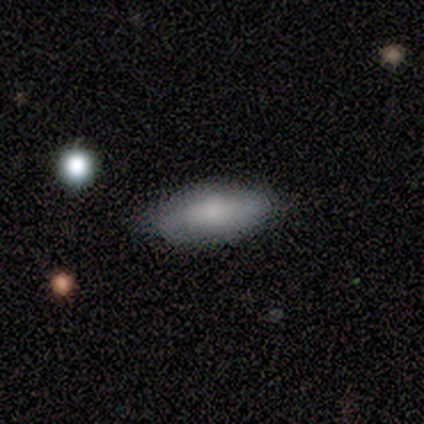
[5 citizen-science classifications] smooth-or-featured: smooth: 80% | featured or disk: 20% | star or artifact: 0%
  how-rounded: in between: 75% | cigar-shaped: 25% | round: 0%
  merging: none: 100% | minor disturbance: 0% | major disturbance: 0% | merger: 0%